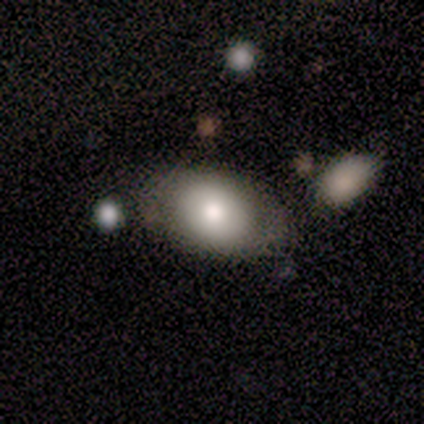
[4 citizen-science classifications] A smooth galaxy with no disk features (75%) that is round (67%).

Vote fractions:
- Smooth or featured? smooth: 75% / featured or disk: 25% / star or artifact: 0%
- How rounded? round: 67% / in between: 33% / cigar-shaped: 0%
- Merging? none: 75% / merger: 25% / minor disturbance: 0% / major disturbance: 0%